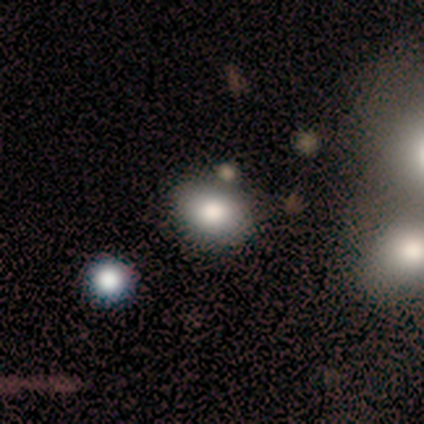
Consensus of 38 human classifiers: smooth_or_featured: smooth (p=0.76) [alt: star or artifact p=0.16]
how_rounded: in between (p=0.55) [alt: round p=0.45]
merging: none (p=0.69) [alt: minor disturbance p=0.16]